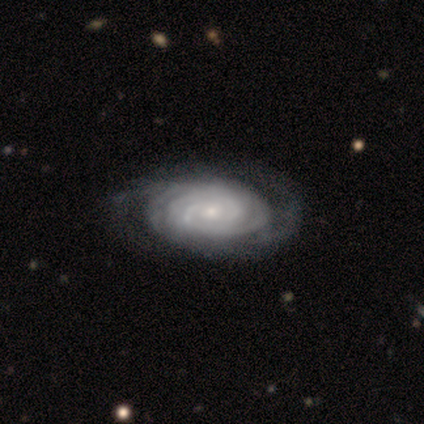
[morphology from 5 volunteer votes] Q: Smooth or featured?
A: featured or disk (100%)
Q: Edge-on disk?
A: no (80%); runner-up: yes (20%)
Q: Bar?
A: no (75%); runner-up: weak (25%)
Q: Spiral arms?
A: yes (100%)
Q: Spiral winding?
A: tight (100%)
Q: Spiral arm count?
A: can't tell (75%); runner-up: 4 (25%)
Q: Bulge size?
A: small (75%); runner-up: moderate (25%)
Q: Merging?
A: none (100%)